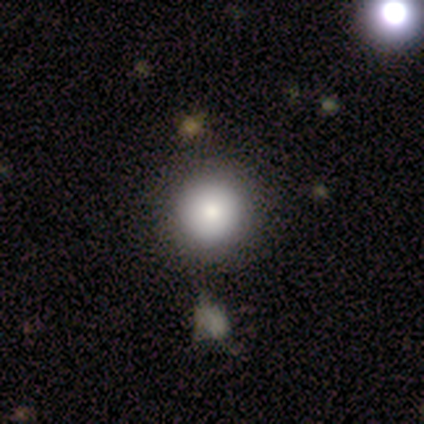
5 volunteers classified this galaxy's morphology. type=smooth (100%); roundness=round (100%); merging=none (80%).